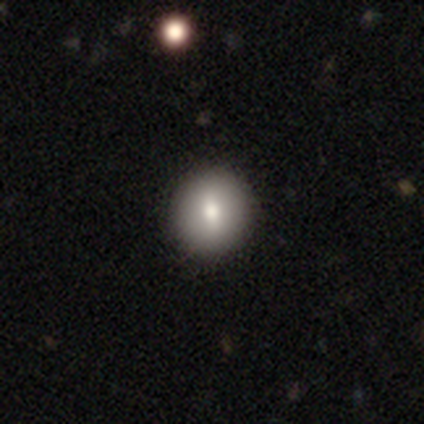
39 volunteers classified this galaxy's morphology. Q: Smooth or featured?
A: smooth (72%); runner-up: featured or disk (21%)
Q: How rounded?
A: round (86%); runner-up: in between (14%)
Q: Merging?
A: none (92%); runner-up: minor disturbance (6%)